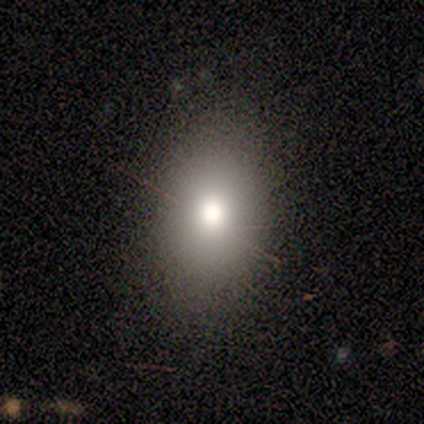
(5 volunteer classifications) A smooth galaxy with no disk features (80%) that is in between round and cigar-shaped (75%). Merging: none (100%).